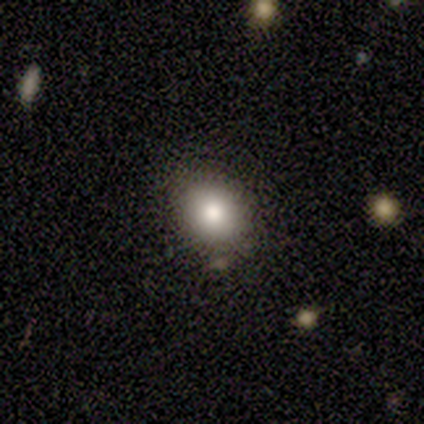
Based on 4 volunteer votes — smooth-or-featured: smooth: 50% (tied) | featured or disk: 50% (tied) | star or artifact: 0%
  how-rounded: round: 100% | in between: 0% | cigar-shaped: 0%
  merging: none: 75% | merger: 25% | minor disturbance: 0% | major disturbance: 0%